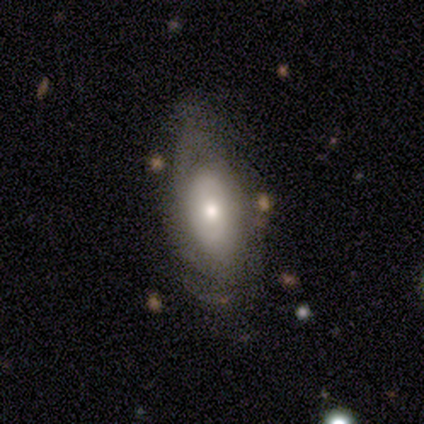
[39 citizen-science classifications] featured or disk 49%, smooth 46%, star or artifact 5%. Down the decision tree: edge-on disk — no (95%); bar — no (61%); spiral arms — yes (72%); spiral arm count — can't tell (77%); spiral winding — tight (54%); bulge size — small (56%); merging — none (57%).